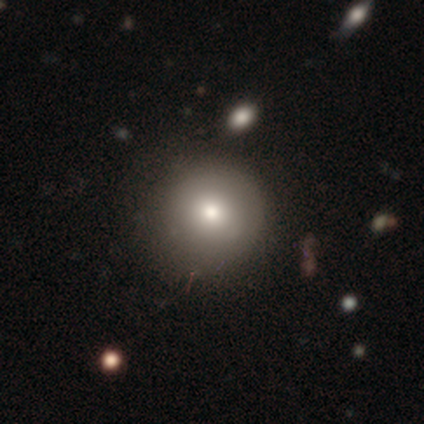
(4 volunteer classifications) A smooth galaxy with no disk features (100%) that is round (75%).

Vote fractions:
- Smooth or featured? smooth: 100% / featured or disk: 0% / star or artifact: 0%
- How rounded? round: 75% / in between: 25% / cigar-shaped: 0%
- Merging? none: 100% / minor disturbance: 0% / major disturbance: 0% / merger: 0%